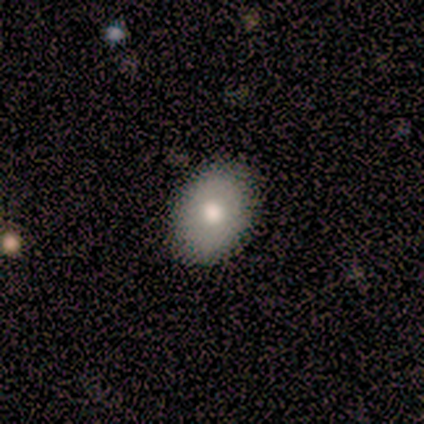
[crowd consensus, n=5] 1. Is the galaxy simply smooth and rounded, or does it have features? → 80% smooth, 20% featured or disk, 0% star or artifact.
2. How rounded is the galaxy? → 50% round (tied), 50% in between (tied), 0% cigar-shaped.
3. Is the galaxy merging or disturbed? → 100% none, 0% minor disturbance, 0% major disturbance, 0% merger.